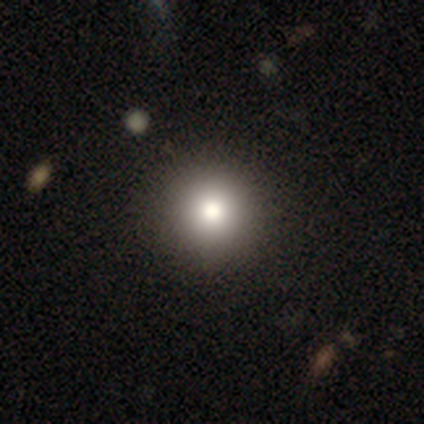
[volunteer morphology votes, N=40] This is likely a smooth galaxy (70%). How rounded: clearly round (100%). Merging: likely none (73%).